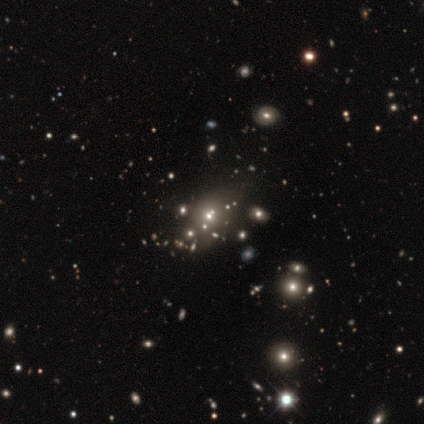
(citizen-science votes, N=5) Q: Smooth or featured?
A: smooth (40%); tied with: star or artifact (40%)
Q: How rounded?
A: round (100%)
Q: Merging?
A: none (67%); runner-up: merger (33%)